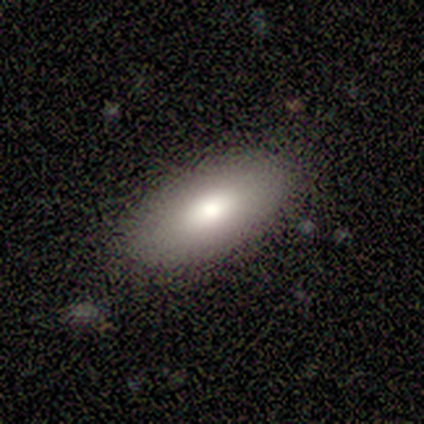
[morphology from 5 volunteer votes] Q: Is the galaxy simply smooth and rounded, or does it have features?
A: smooth — 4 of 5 (80%).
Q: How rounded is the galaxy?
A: in between — 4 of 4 (100%).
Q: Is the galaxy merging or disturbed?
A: none — 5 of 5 (100%).